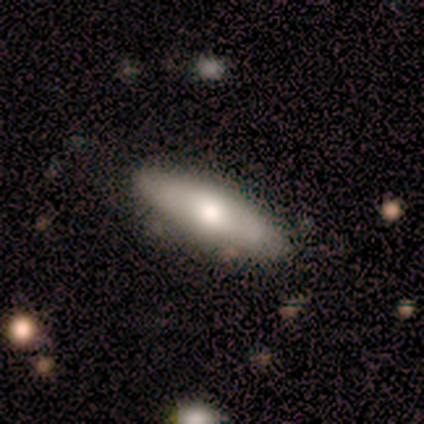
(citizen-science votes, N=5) A smooth galaxy with no disk features (60%) that is in between round and cigar-shaped (67%).

Vote fractions:
- Smooth or featured? smooth: 60% / featured or disk: 40% / star or artifact: 0%
- How rounded? in between: 67% / cigar-shaped: 33% / round: 0%
- Merging? none: 80% / minor disturbance: 20% / major disturbance: 0% / merger: 0%